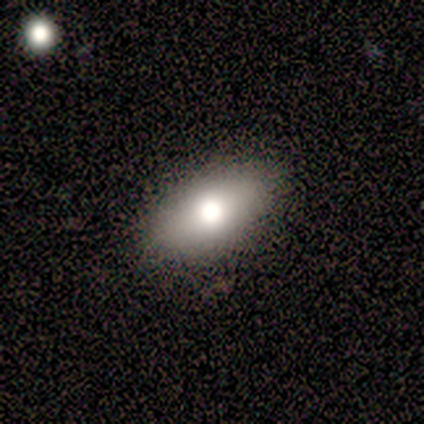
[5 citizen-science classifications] Smooth or featured?
  - smooth: 60% *
  - featured or disk: 40%
  - star or artifact: 0%
How rounded?
  - in between: 100% *
  - round: 0%
  - cigar-shaped: 0%
Merging?
  - none: 100% *
  - minor disturbance: 0%
  - major disturbance: 0%
  - merger: 0%